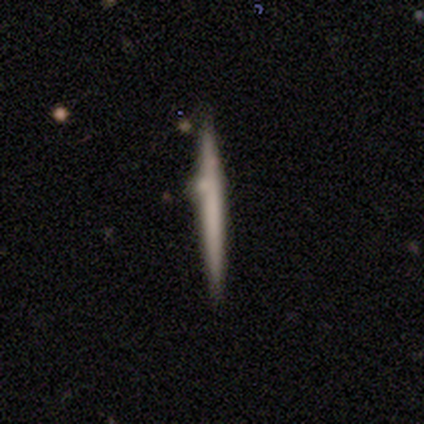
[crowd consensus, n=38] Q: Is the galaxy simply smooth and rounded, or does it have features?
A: smooth — 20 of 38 (53%).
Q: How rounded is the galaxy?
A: cigar-shaped — 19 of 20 (95%).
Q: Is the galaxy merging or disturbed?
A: none — 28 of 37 (76%).